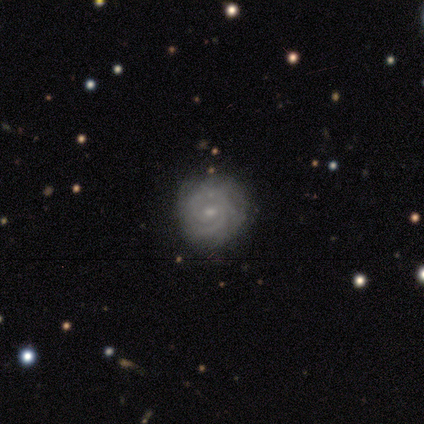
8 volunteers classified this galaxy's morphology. A featured or disk galaxy (75%) with a weak bar (50%, tied with no), tight (50%, tied with medium) spiral arms (100%) and a small central bulge (67%). Merging: none (88%).